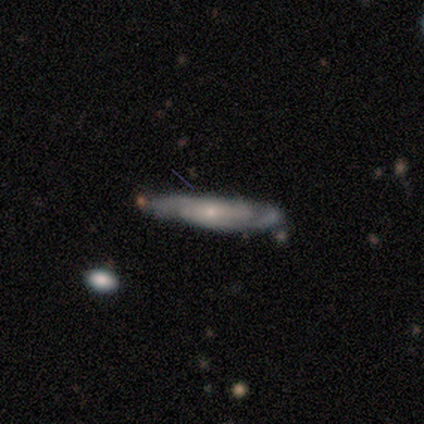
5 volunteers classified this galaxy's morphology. smooth_or_featured: featured or disk (p=1.00)
disk_edge_on: no (p=0.60) [alt: yes p=0.40]
bar: no (p=0.67) [alt: weak p=0.33]
has_spiral_arms: yes (p=0.67) [alt: no p=0.33]
spiral_winding: tight (p=0.50) [tied with: loose p=0.50]
spiral_arm_count: 1 (p=0.50) [tied with: 2 p=0.50]
bulge_size: small (p=1.00)
merging: none (p=0.60) [alt: minor disturbance p=0.20]